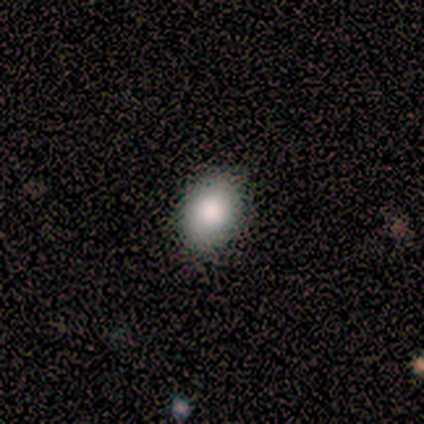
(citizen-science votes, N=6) Smooth or featured? smooth (100%)
How rounded? in between (100%)
Merging? none (100%)